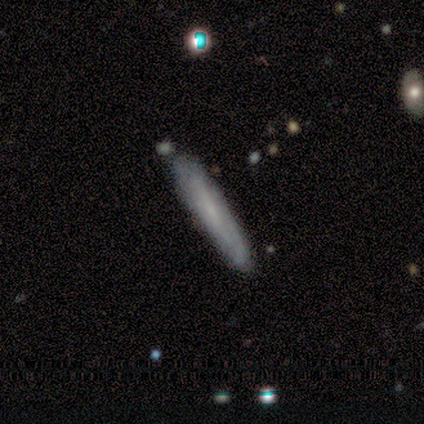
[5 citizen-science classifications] Volunteers were most divided on "smooth or featured": smooth: 60%, featured or disk: 40%, star or artifact: 0%. More confident: merging — none (100%); how rounded — cigar-shaped (67%).